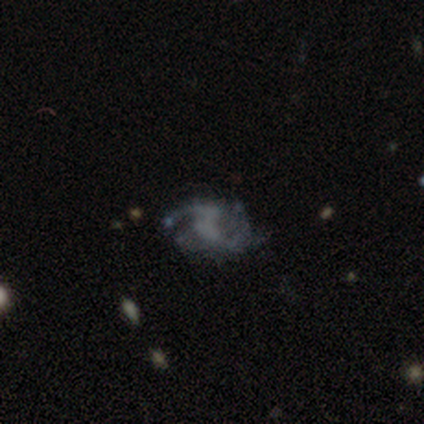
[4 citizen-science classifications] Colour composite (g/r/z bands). It shows a featured or disk galaxy (100%) with a weak bar (67%), 2 (67%) tight (33%, tied with medium and loose) spiral arms (100%) and no central bulge (67%). Merging: none (75%).